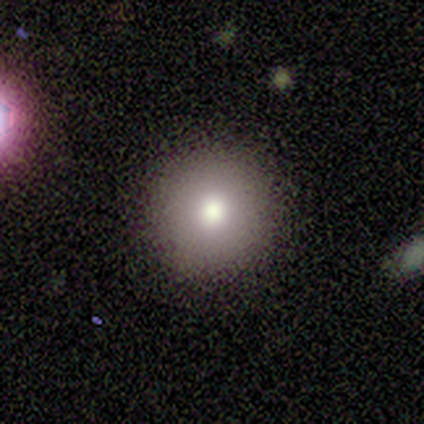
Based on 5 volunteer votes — Smooth or featured?
  - smooth: 80% *
  - star or artifact: 20%
  - featured or disk: 0%
How rounded?
  - round: 100% *
  - in between: 0%
  - cigar-shaped: 0%
Merging?
  - none: 100% *
  - minor disturbance: 0%
  - major disturbance: 0%
  - merger: 0%